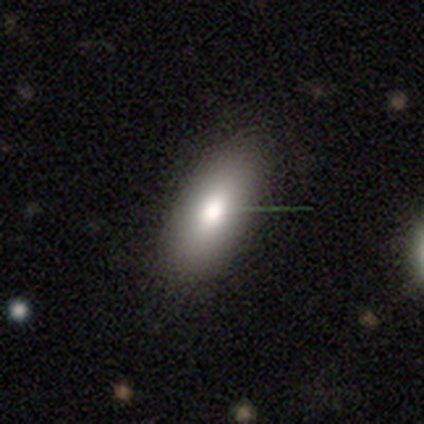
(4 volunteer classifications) Overall: smooth (75%). How rounded: in between (100%). Merging: none (100%).